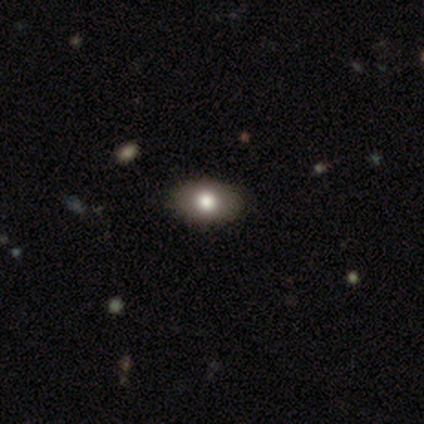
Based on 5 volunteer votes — Q: Smooth or featured?
A: smooth (80%); runner-up: featured or disk (20%)
Q: How rounded?
A: in between (75%); runner-up: round (25%)
Q: Merging?
A: none (80%); runner-up: minor disturbance (20%)